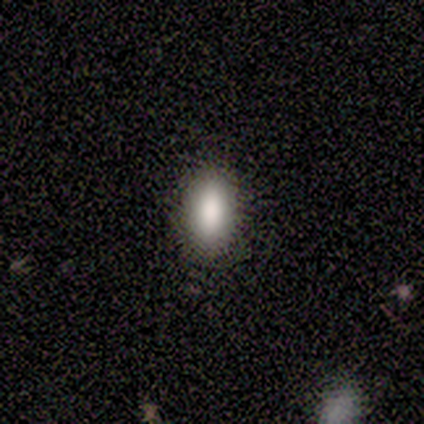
A smooth galaxy with no disk features (100%) that is in between round and cigar-shaped (100%). Merging: none (100%).